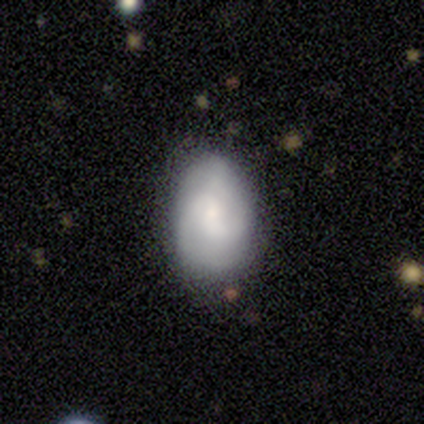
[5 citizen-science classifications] Morphology: type=featured or disk (60%); edge-on=no (100%); bar=no (100%); spiral arms=yes (67%); winding=tight (100%); arm count=2 (50%, tied with can't tell); bulge=small (67%); merging=none (60%).